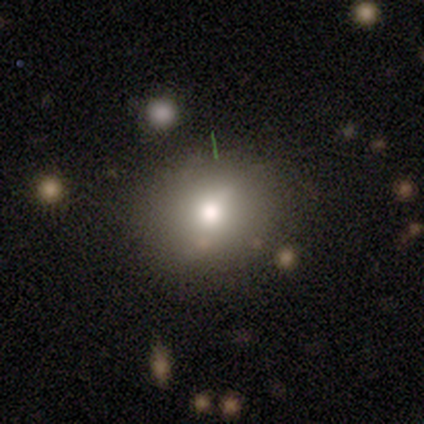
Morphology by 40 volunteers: smooth 65%, featured or disk 22%, star or artifact 12%. Down the decision tree: how rounded — round (85%); merging — none (80%).